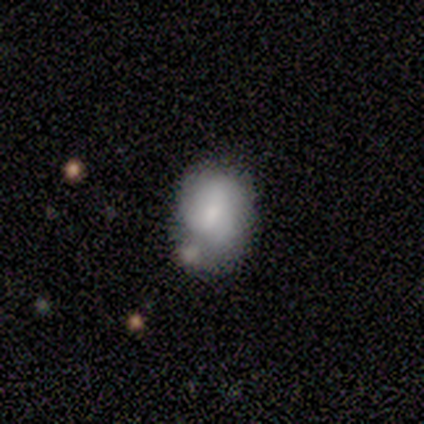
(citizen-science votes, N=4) This is possibly a smooth galaxy (50%, tied with featured or disk). How rounded: clearly in between (100%). Merging: possibly none (50%).